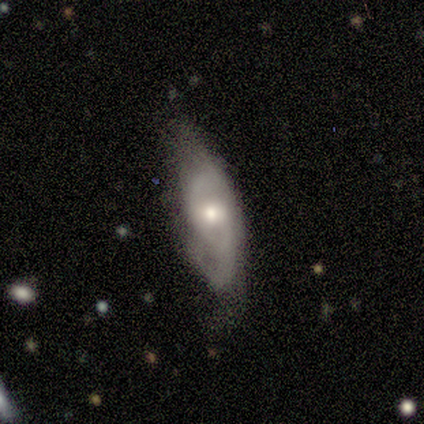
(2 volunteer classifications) This appears to be a smooth galaxy with no disk features (50%, tied with featured or disk) that is in between round and cigar-shaped (100%). Merging: none (50%, tied with minor disturbance).